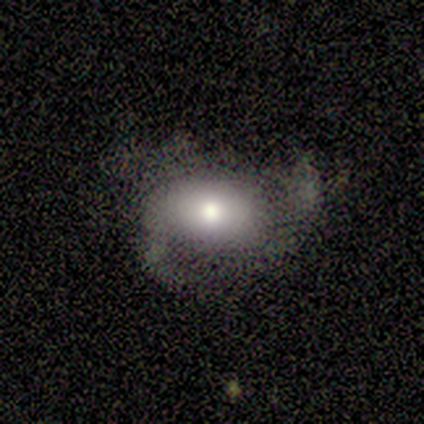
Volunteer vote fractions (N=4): Morphology: type=smooth (50%, tied with featured or disk); roundness=round (50%, tied with in between); merging=minor disturbance (75%).